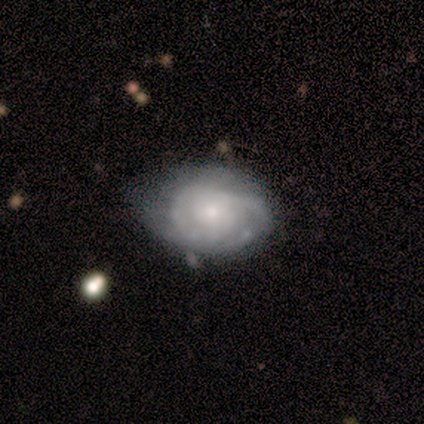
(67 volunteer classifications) Smooth or featured? featured or disk (73%)
Edge-on disk? no (100%)
Bar? no (86%)
Spiral arms? yes (82%)
Spiral winding? tight (72%)
Spiral arm count? can't tell (52%)
Bulge size? small (59%)
Merging? none (45%)